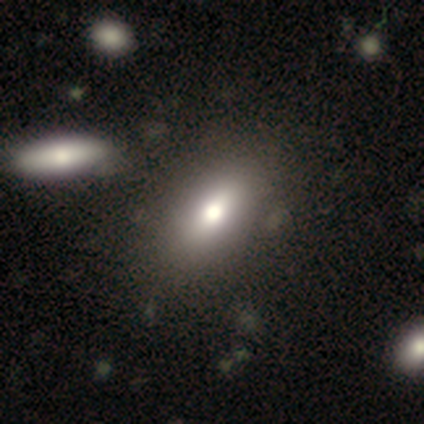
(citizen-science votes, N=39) smooth_or_featured: smooth (p=0.82) [alt: featured or disk p=0.13]
how_rounded: in between (p=0.75) [alt: round p=0.12]
merging: none (p=0.68) [alt: minor disturbance p=0.08]